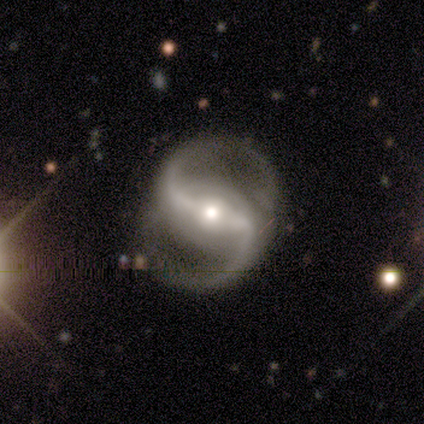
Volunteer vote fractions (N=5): This appears to be a featured or disk galaxy (100%) with a strong bar (60%), 2 (80%) medium (60%) spiral arms (100%) and a moderate central bulge (100%). Merging: none (60%).